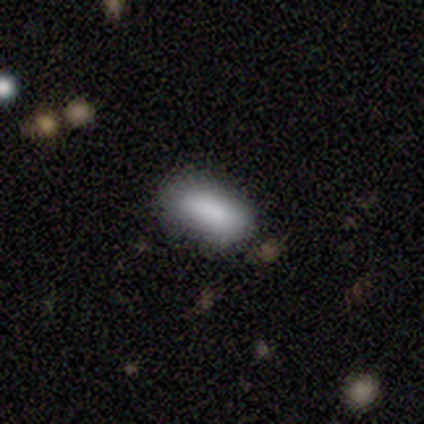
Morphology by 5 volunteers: smooth_or_featured: smooth (p=1.00)
how_rounded: in between (p=1.00)
merging: none (p=0.60) [alt: minor disturbance p=0.20]